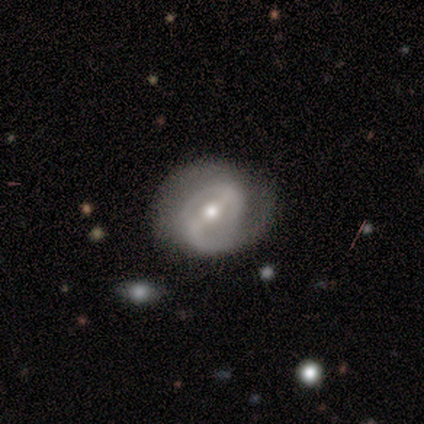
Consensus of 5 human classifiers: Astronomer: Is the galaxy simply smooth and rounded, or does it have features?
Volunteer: featured or disk — 100%.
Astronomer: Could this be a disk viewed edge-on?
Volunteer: no — 100%.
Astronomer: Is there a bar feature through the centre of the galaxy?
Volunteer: strong — 80%.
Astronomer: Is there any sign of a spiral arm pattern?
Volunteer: yes — 100%.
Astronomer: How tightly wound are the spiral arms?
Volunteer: tight — 60% (runner-up: medium, 40%).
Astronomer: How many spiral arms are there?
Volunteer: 2 — 100%.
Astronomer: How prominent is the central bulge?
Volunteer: moderate — 80%.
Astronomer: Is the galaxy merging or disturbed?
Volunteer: none — 80%.